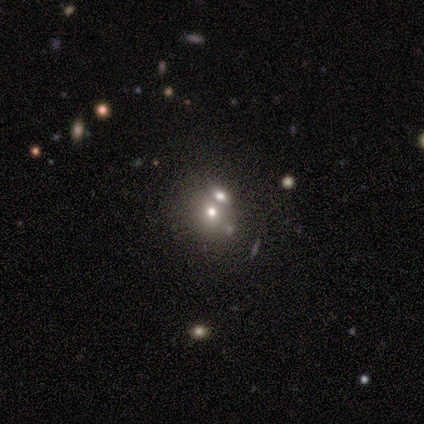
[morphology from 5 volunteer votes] Smooth or featured?
  - smooth: 40% * (tied)
  - featured or disk: 40% * (tied)
  - star or artifact: 20%
How rounded?
  - round: 50% * (tied)
  - in between: 50% * (tied)
  - cigar-shaped: 0%
Merging?
  - merger: 100% *
  - none: 0%
  - minor disturbance: 0%
  - major disturbance: 0%